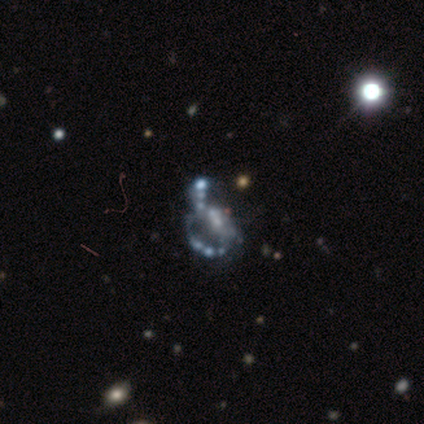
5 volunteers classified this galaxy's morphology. featured or disk 80%, star or artifact 20%, smooth 0%. Down the decision tree: edge-on disk — no (100%); bar — no (100%); spiral arms — yes (75%); spiral arm count — 2 (100%); spiral winding — loose (67%); bulge size — small (50%, tied with none); merging — major disturbance (50%).